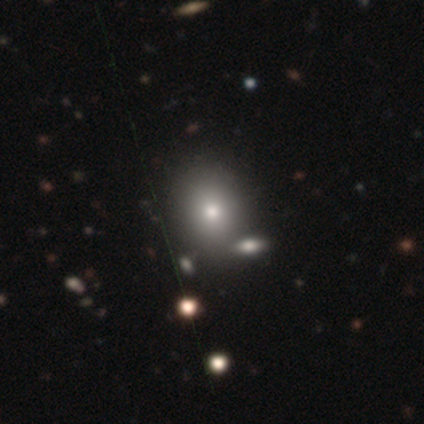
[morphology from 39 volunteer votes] Overall: smooth (77%). How rounded: round (60%; in between 40%). Merging: none (52%; merger 16%).